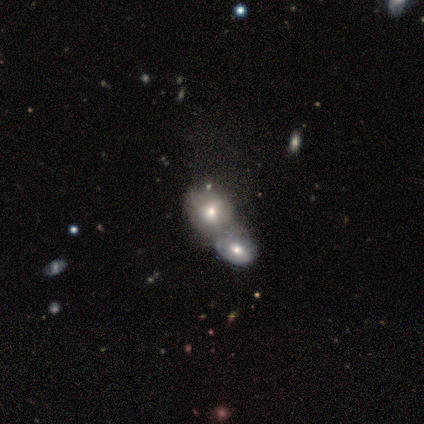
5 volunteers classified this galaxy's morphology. Volunteers were most divided on "bar": no: 75%, weak: 25%, strong: 0%. More confident: edge-on disk — no (100%); merging — merger (100%); smooth or featured — featured or disk (80%); spiral arms — no (75%); bulge size — small (75%).